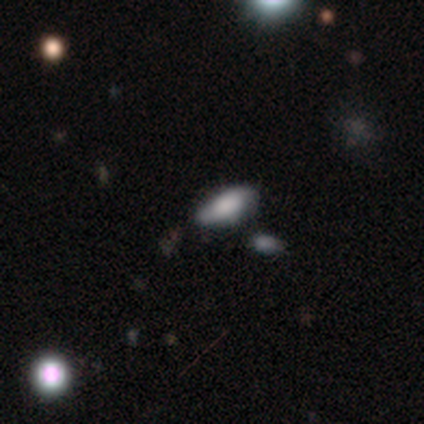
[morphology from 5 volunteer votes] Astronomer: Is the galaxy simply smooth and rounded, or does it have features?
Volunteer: smooth — 60%.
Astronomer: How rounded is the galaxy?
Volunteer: in between — 67%.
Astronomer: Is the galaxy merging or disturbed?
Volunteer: none — 50%.